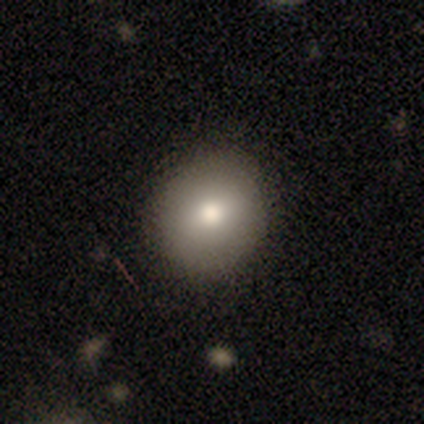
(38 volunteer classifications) This appears to be a smooth galaxy with no disk features (79%) that is round (90%). Merging: none (88%).